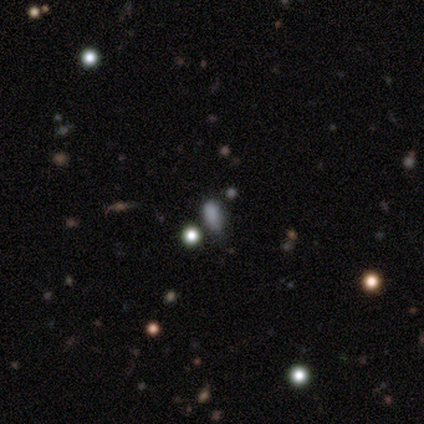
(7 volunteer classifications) A smooth galaxy with no disk features (43%, tied with star or artifact) that is in between round and cigar-shaped (100%). Merging: none (50%, tied with minor disturbance).